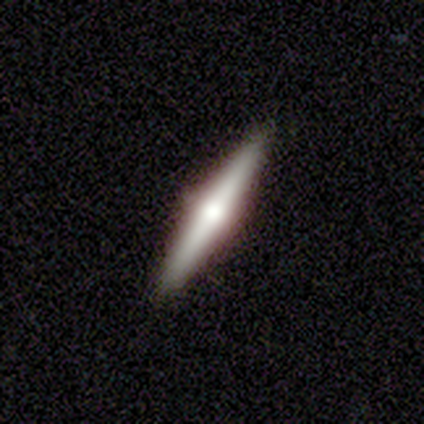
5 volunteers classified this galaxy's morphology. Smooth or featured? featured or disk (80%)
Edge-on disk? yes (100%)
Edge-on bulge? rounded (100%)
Merging? none (100%)